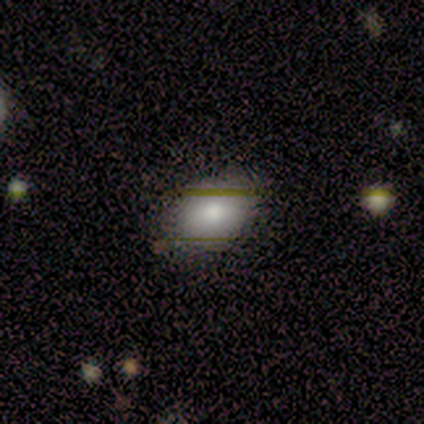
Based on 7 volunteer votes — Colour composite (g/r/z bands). It shows a smooth galaxy with no disk features (71%) that is in between round and cigar-shaped (100%). Merging: none (80%).